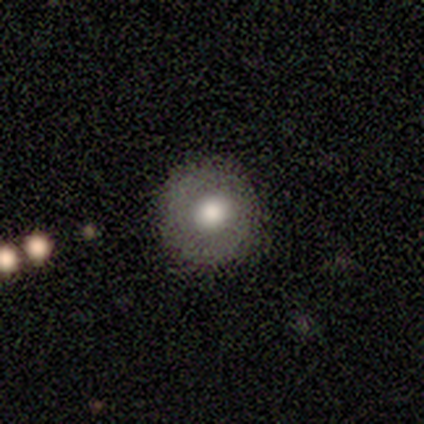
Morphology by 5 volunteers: smooth-or-featured: smooth: 80% | featured or disk: 20% | star or artifact: 0%
  how-rounded: round: 100% | in between: 0% | cigar-shaped: 0%
  merging: none: 100% | minor disturbance: 0% | major disturbance: 0% | merger: 0%